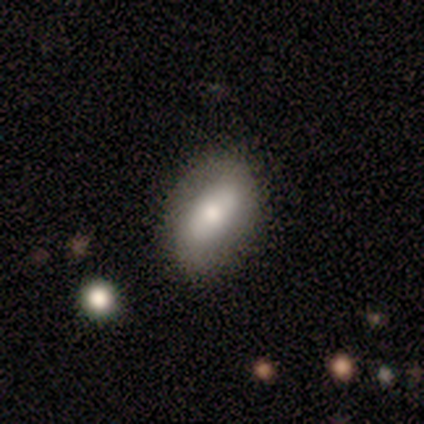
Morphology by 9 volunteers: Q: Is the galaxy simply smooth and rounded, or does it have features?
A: smooth — 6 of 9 (67%).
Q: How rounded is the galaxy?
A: in between — 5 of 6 (83%).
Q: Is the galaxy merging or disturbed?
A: none — 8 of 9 (89%).